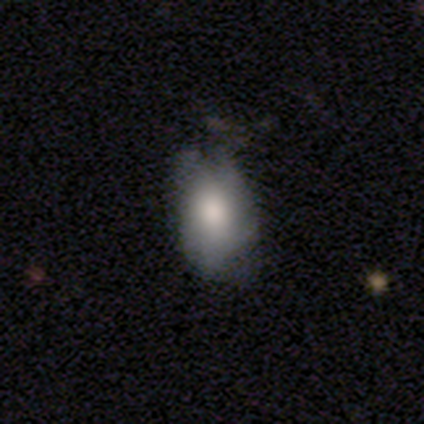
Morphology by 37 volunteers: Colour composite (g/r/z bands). It shows a smooth galaxy with no disk features (73%) that is in between round and cigar-shaped (93%). Merging: none (50%).